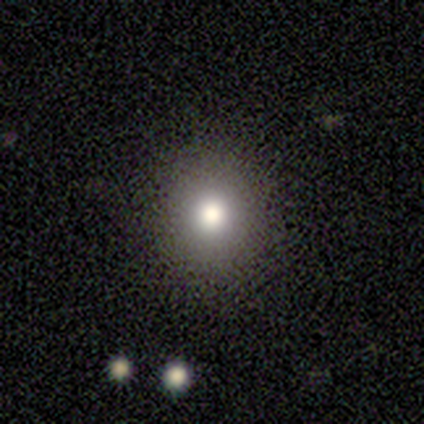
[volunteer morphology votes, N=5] smooth 60%, featured or disk 20%, star or artifact 20%. Down the decision tree: how rounded — round (100%); merging — none (100%).